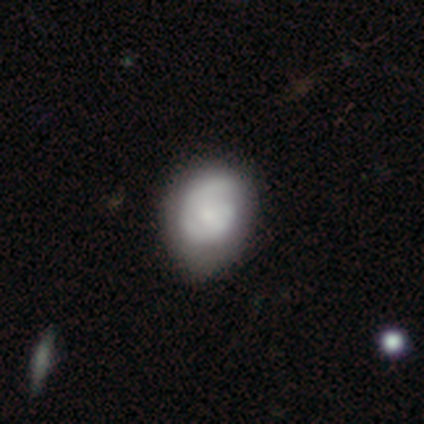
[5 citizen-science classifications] smooth 40% (tied), featured or disk 40% (tied), star or artifact 20%. Down the decision tree: how rounded — round (50%, tied with in between); merging — none (50%, tied with minor disturbance).